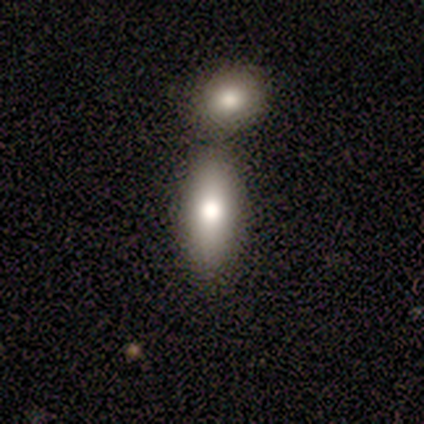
This appears to be a smooth galaxy with no disk features (80%) that is cigar-shaped (75%). Merging: merger (60%).